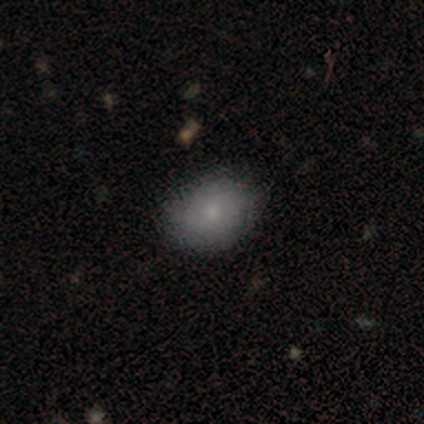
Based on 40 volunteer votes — This is likely a smooth galaxy (72%). How rounded: likely in between (79%). Merging: likely none (75%).